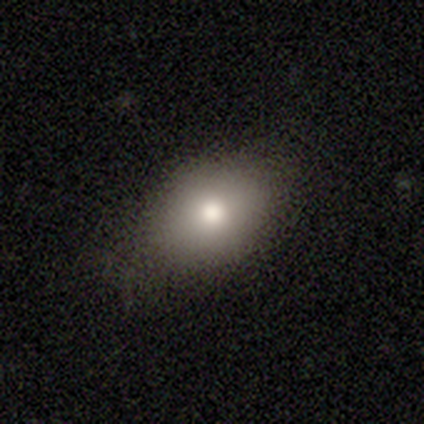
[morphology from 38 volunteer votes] Smooth or featured: smooth — 74% (featured or disk — 13%)
How rounded: in between — 71% (round — 25%)
Merging: none — 76% (minor disturbance — 18%)